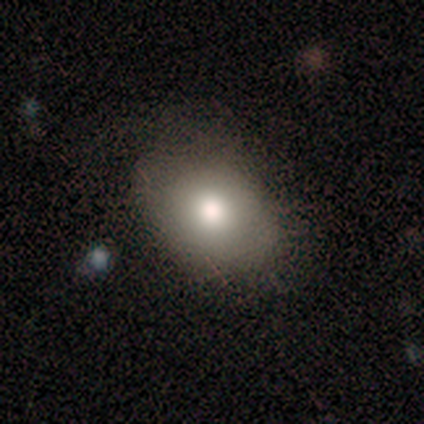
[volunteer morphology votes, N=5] A smooth galaxy with no disk features (100%) that is in between round and cigar-shaped (80%). Merging: none (40%, tied with minor disturbance).